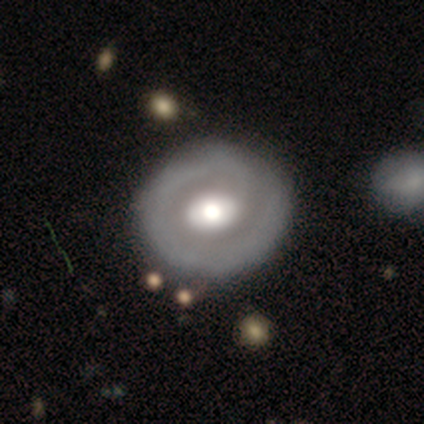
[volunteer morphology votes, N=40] This appears to be a featured or disk galaxy (72%) with no bar (72%), no spiral arms (55%) and a large central bulge (52%). Merging: none (51%).